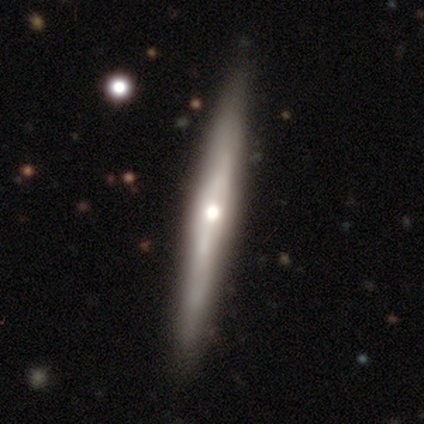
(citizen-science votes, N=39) Smooth or featured? 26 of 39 (67%) said featured or disk. Edge-on disk? 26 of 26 (100%) said yes. Edge-on bulge? 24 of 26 (92%) said rounded. Merging? 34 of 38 (89%) said none.